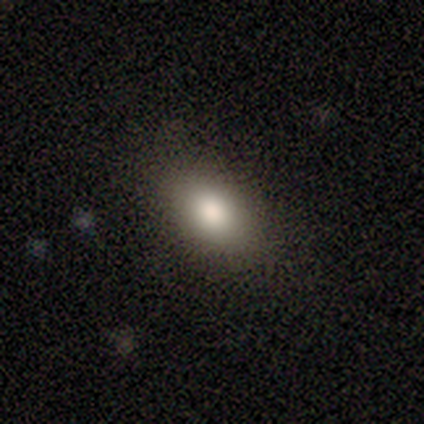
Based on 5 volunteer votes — smooth 100%, featured or disk 0%, star or artifact 0%. Down the decision tree: how rounded — in between (80%); merging — none (100%).